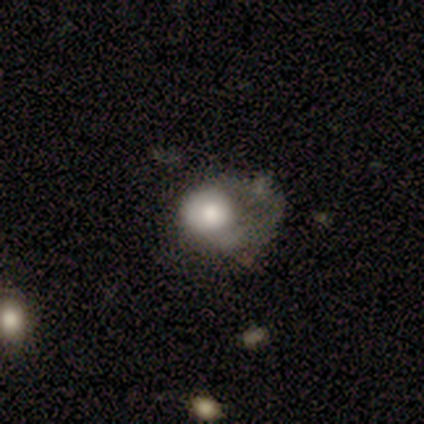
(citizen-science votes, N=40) Smooth or featured: smooth — 65% (featured or disk — 28%)
How rounded: round — 54% (in between — 42%)
Merging: minor disturbance — 35% (tied with major disturbance — 35%)